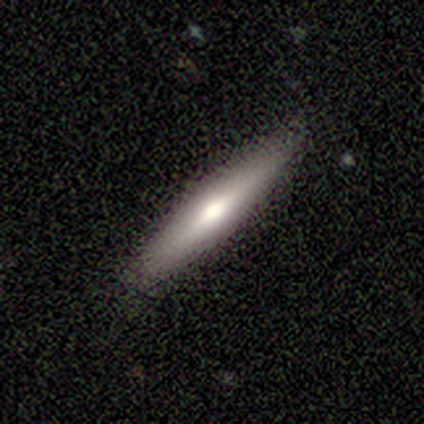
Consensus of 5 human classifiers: smooth-or-featured: smooth: 60% | featured or disk: 40% | star or artifact: 0%
  how-rounded: cigar-shaped: 100% | round: 0% | in between: 0%
  merging: none: 80% | minor disturbance: 20% | major disturbance: 0% | merger: 0%